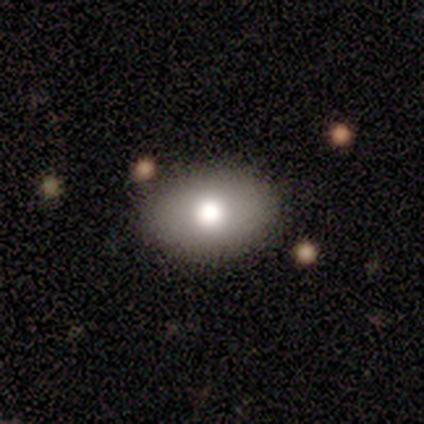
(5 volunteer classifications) A smooth galaxy with no disk features (80%) that is in between round and cigar-shaped (75%). Merging: none (60%).